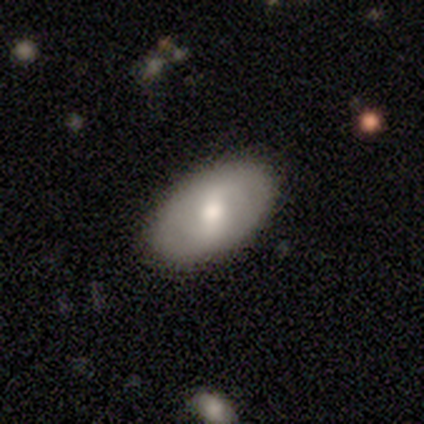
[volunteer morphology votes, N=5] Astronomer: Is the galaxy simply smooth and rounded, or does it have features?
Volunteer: smooth — 60% (runner-up: featured or disk, 40%).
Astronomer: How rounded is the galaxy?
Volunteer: in between — 100%.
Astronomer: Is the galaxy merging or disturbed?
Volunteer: none — 100%.